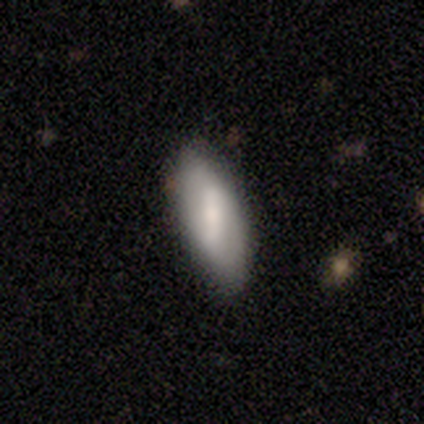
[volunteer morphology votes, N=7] smooth-or-featured: featured or disk: 57% | smooth: 43% | star or artifact: 0%
  disk-edge-on: no: 100% | yes: 0%
    bar: weak: 50% | strong: 25% | no: 25%
    has-spiral-arms: yes: 100% | no: 0%
      spiral-winding: medium: 50% (tied) | loose: 50% (tied) | tight: 0%
      spiral-arm-count: 2: 75% | can't tell: 25% | 1: 0% | 3: 0% | 4: 0% | more than 4: 0%
    bulge-size: large: 50% (tied) | moderate: 50% (tied) | dominant: 0% | small: 0% | none: 0%
  merging: none: 71% | minor disturbance: 14% | major disturbance: 14% | merger: 0%